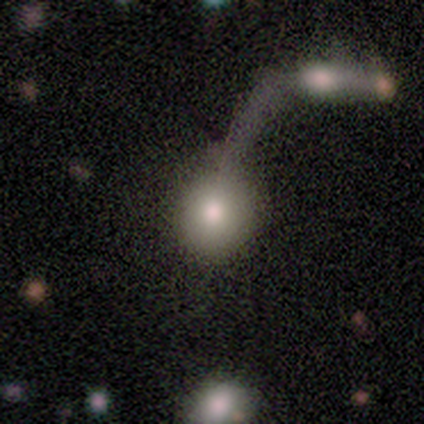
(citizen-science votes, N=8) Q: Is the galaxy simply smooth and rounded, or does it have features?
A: smooth — 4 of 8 (50%, tied with star or artifact).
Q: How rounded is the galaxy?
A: round — 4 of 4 (100%).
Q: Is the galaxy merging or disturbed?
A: merger — 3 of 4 (75%).